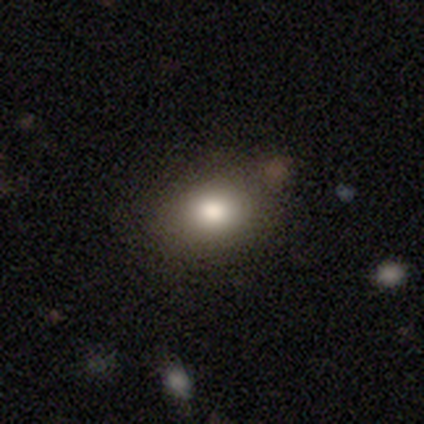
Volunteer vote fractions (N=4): Smooth or featured? smooth (100%)
How rounded? in between (75%)
Merging? none (100%)